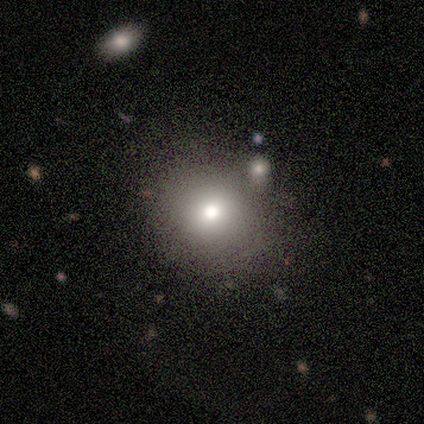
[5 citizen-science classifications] smooth_or_featured: smooth (p=0.80) [alt: star or artifact p=0.20]
how_rounded: round (p=0.75) [alt: in between p=0.25]
merging: none (p=1.00)